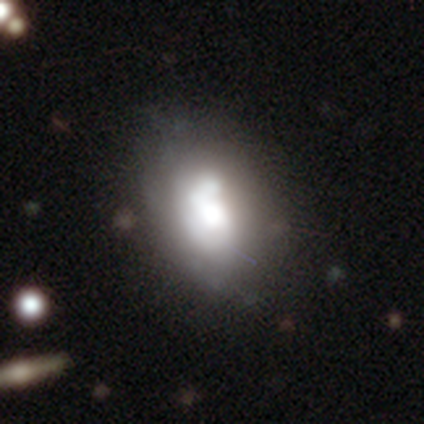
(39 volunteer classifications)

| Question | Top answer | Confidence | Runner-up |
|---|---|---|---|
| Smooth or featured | featured or disk | 49% | smooth (44%) |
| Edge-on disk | no | 100% | — |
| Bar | no | 63% | weak (32%) |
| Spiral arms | yes | 53% | no (47%) |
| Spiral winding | medium | 40% | tight (30%) |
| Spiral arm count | can't tell | 40% | 1 (30%) |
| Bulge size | large | 47% | moderate (32%) |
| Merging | none | 53% | major disturbance (19%) |